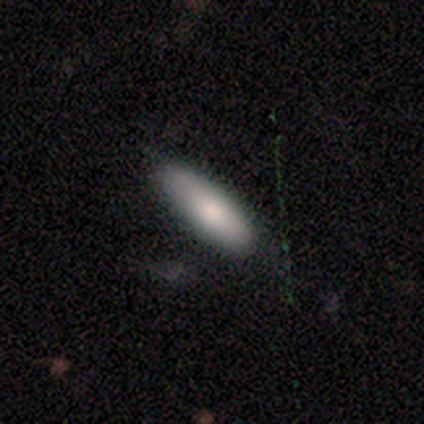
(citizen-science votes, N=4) Smooth or featured? smooth (100%)
How rounded? cigar-shaped (75%)
Merging? none (75%)